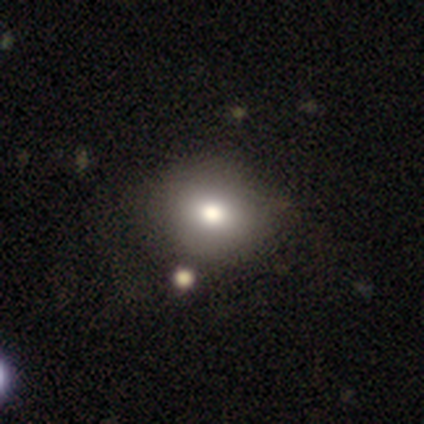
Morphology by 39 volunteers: type=smooth (67%); roundness=round (58%); merging=none (78%).